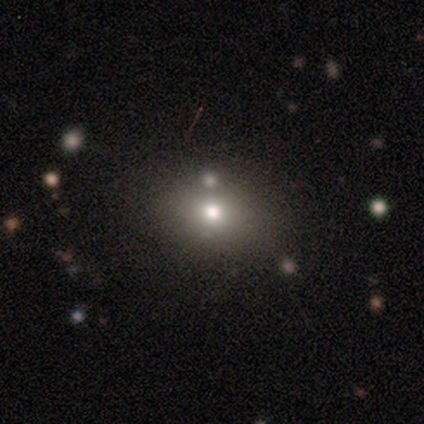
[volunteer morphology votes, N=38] Smooth or featured: smooth — 82% (featured or disk — 13%)
How rounded: in between — 61% (round — 39%)
Merging: none — 61% (merger — 11%)